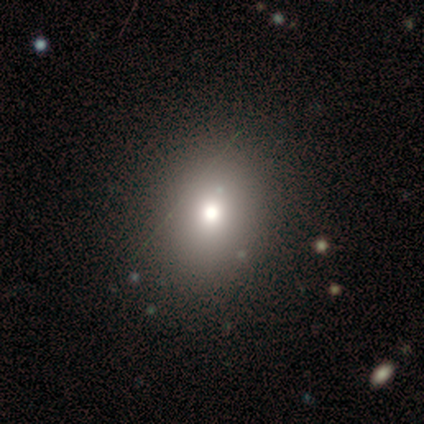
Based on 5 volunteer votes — Overall: smooth (100%). How rounded: round (60%; in between 40%). Merging: none (80%).